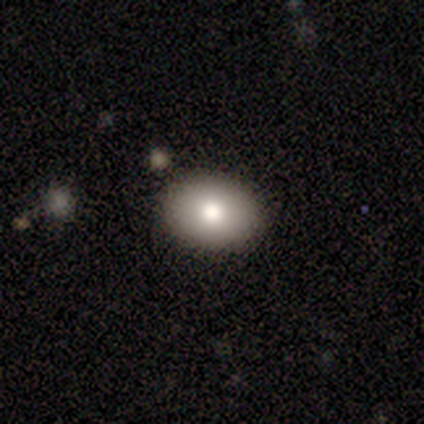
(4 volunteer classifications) Overall: smooth (100%). How rounded: round (50%, tied with in between). Merging: none (100%).